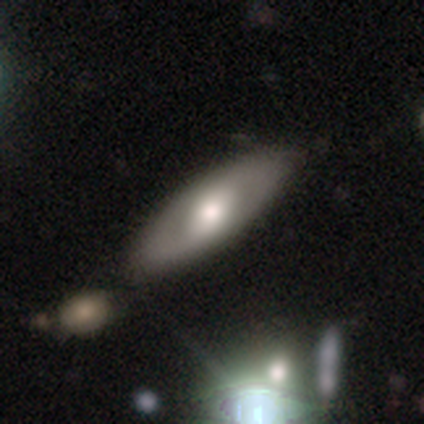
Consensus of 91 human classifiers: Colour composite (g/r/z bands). It shows a featured or disk galaxy (56%) with no bar (46%), no spiral arms (51%) and a moderate central bulge (80%). Merging: none (84%).